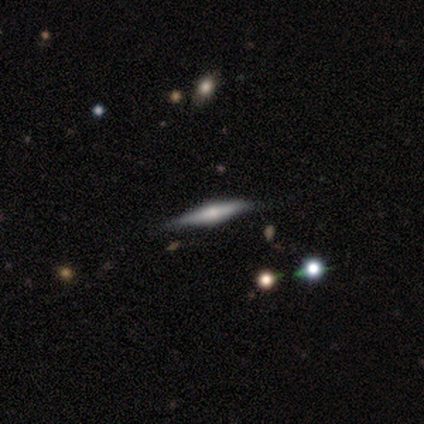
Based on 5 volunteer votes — Q: Smooth or featured?
A: featured or disk (80%); runner-up: smooth (20%)
Q: Edge-on disk?
A: yes (75%); runner-up: no (25%)
Q: Edge-on bulge?
A: rounded (100%)
Q: Merging?
A: none (60%); runner-up: minor disturbance (40%)